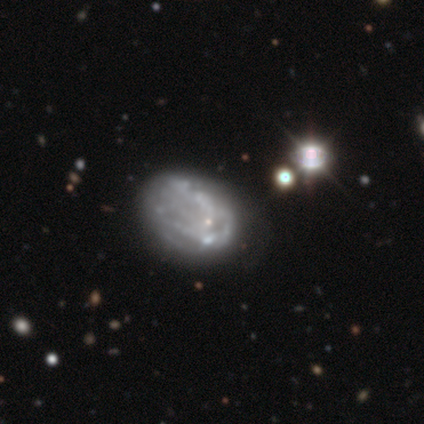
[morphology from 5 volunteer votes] This appears to be a featured or disk galaxy (100%) with no bar (100%), no spiral arms (60%) and a small central bulge (60%). Merging: none (40%, tied with minor disturbance).